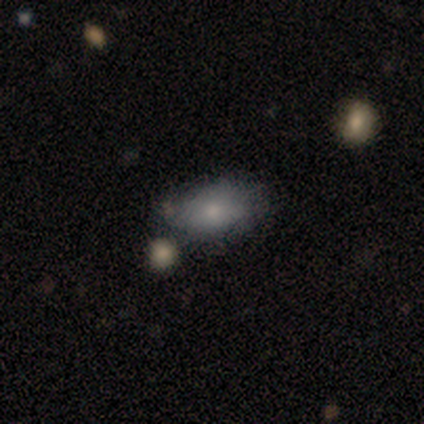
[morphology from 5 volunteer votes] Smooth or featured? 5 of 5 (100%) said smooth. How rounded? 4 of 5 (80%) said in between. Merging? 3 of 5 (60%) said none.